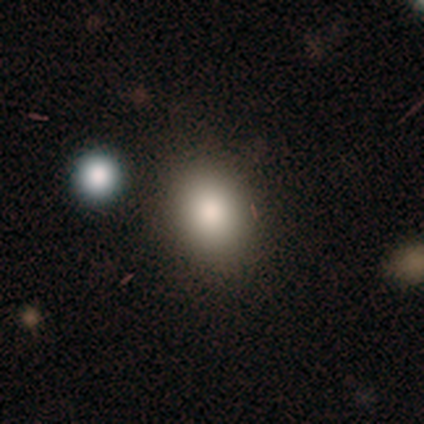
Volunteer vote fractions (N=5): This is likely a smooth galaxy (60%). How rounded: clearly in between (100%). Merging: likely none (75%).